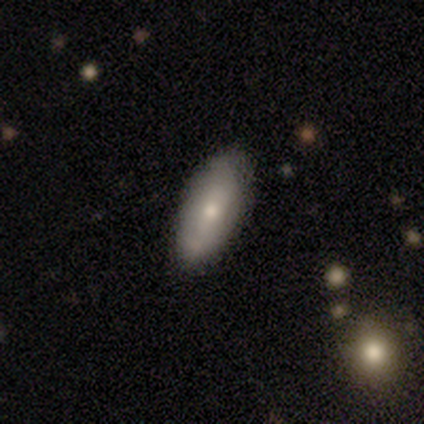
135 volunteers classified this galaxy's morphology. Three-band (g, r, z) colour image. It shows a smooth galaxy with no disk features (70%) that is in between round and cigar-shaped (84%). Merging: none (81%).